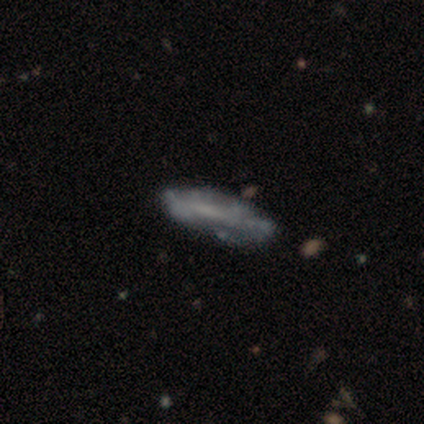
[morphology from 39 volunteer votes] Smooth or featured? featured or disk (54%)
Edge-on disk? no (57%)
Bar? no (75%)
Spiral arms? no (75%)
Bulge size? none (75%)
Merging? none (71%)